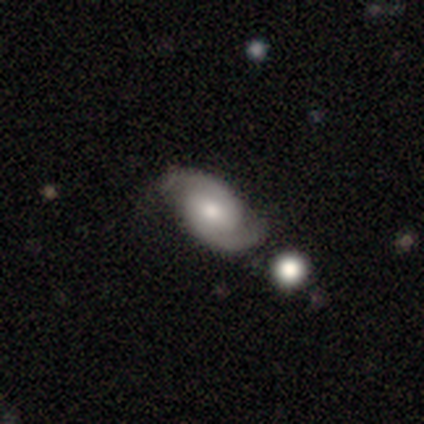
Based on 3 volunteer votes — Morphology: type=featured or disk (67%); edge-on=no (100%); bar=weak (50%, tied with no); spiral arms=yes (100%); winding=loose (100%); arm count=1 (50%, tied with 2); bulge=moderate (100%); merging=none (67%).